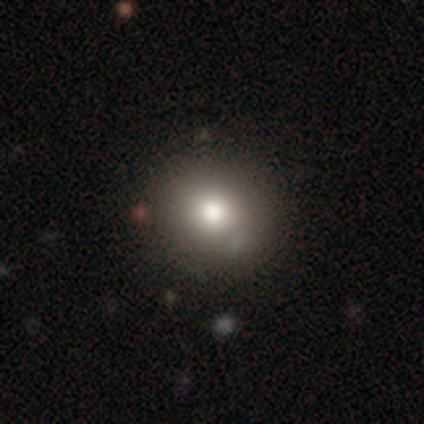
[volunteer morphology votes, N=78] This is likely a smooth galaxy (78%). How rounded: clearly round (90%). Merging: possibly none (47%).